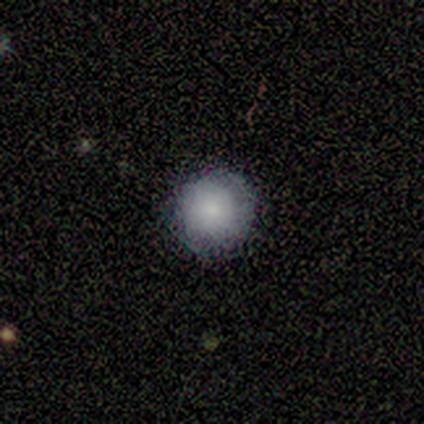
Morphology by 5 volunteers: Smooth or featured?
  - smooth: 80% *
  - featured or disk: 20%
  - star or artifact: 0%
How rounded?
  - round: 75% *
  - in between: 25%
  - cigar-shaped: 0%
Merging?
  - none: 100% *
  - minor disturbance: 0%
  - major disturbance: 0%
  - merger: 0%